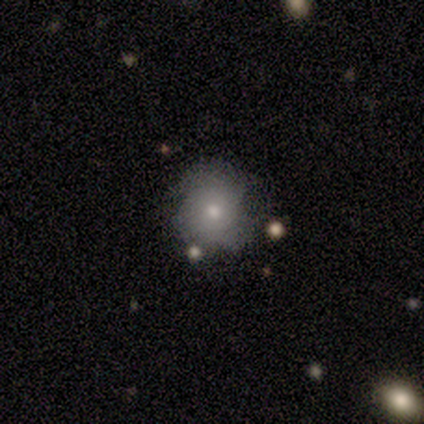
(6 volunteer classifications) smooth-or-featured: smooth: 67% | featured or disk: 33% | star or artifact: 0%
  how-rounded: round: 75% | in between: 25% | cigar-shaped: 0%
  merging: none: 33% (tied) | minor disturbance: 33% (tied) | major disturbance: 17% | merger: 17%